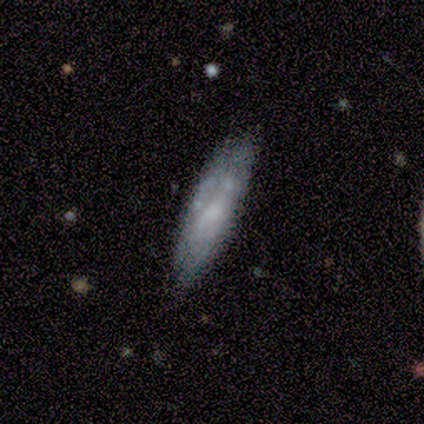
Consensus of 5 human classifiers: A smooth galaxy with no disk features (80%) that is cigar-shaped (75%).

Vote fractions:
- Smooth or featured? smooth: 80% / star or artifact: 20% / featured or disk: 0%
- How rounded? cigar-shaped: 75% / in between: 25% / round: 0%
- Merging? none: 75% / minor disturbance: 25% / major disturbance: 0% / merger: 0%